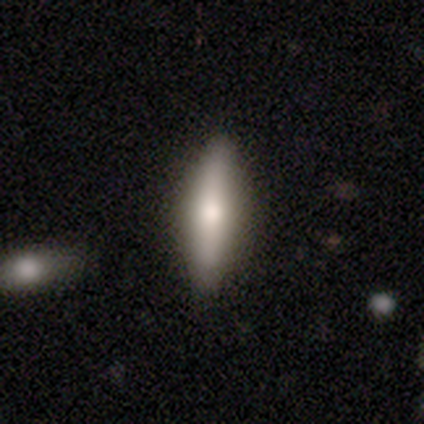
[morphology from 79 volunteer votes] Volunteers were most divided on "smooth or featured": smooth: 52%, featured or disk: 41%, star or artifact: 8%. More confident: merging — none (86%); how rounded — cigar-shaped (73%).